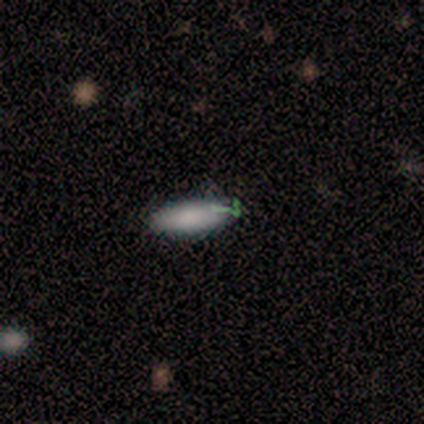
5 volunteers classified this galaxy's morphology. Q: Smooth or featured?
A: smooth (80%); runner-up: featured or disk (20%)
Q: How rounded?
A: in between (50%); tied with: cigar-shaped (50%)
Q: Merging?
A: none (60%); runner-up: minor disturbance (20%)